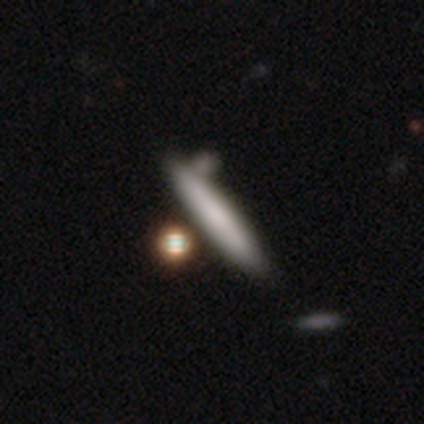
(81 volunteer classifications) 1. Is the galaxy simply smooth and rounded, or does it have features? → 78% smooth, 14% featured or disk, 9% star or artifact.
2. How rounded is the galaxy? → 89% cigar-shaped, 11% in between, 0% round.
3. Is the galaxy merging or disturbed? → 36% none, 16% merger, 5% minor disturbance, 3% major disturbance.